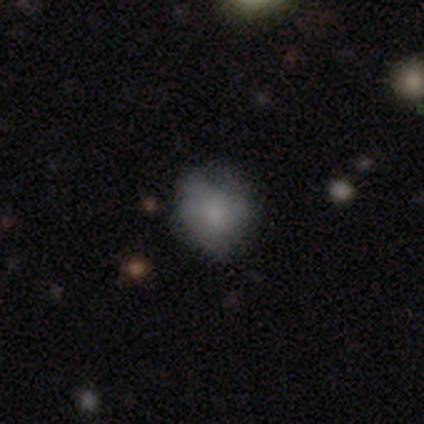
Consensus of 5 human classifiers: smooth_or_featured: smooth (p=0.60) [alt: featured or disk p=0.40]
how_rounded: round (p=1.00)
merging: none (p=0.60) [alt: minor disturbance p=0.20]